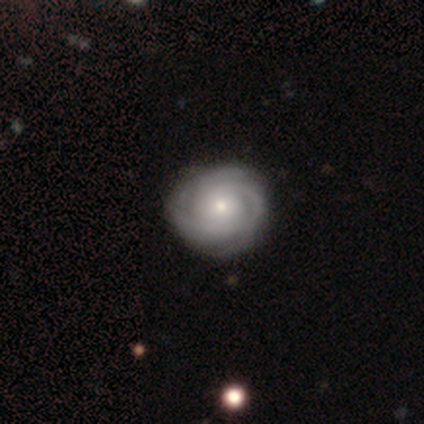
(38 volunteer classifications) Smooth or featured: featured or disk — 82% (smooth — 13%)
Edge-on disk: no — 100%
Bar: no — 90% (weak — 10%)
Spiral arms: yes — 100%
Spiral winding: tight — 74% (medium — 23%)
Spiral arm count: 3 — 42% (can't tell — 26%)
Bulge size: small — 58% (moderate — 32%)
Merging: none — 64% (minor disturbance — 6%)